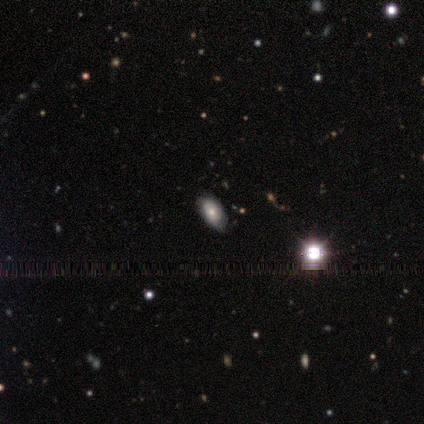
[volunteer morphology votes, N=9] Q: Smooth or featured?
A: smooth (89%); runner-up: star or artifact (11%)
Q: How rounded?
A: in between (100%)
Q: Merging?
A: none (75%); runner-up: minor disturbance (25%)